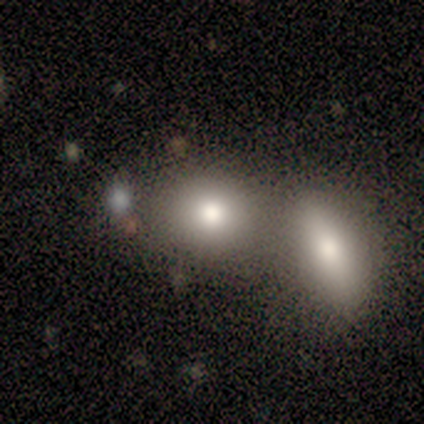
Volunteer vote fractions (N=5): Smooth or featured?
  - smooth: 100% *
  - featured or disk: 0%
  - star or artifact: 0%
How rounded?
  - in between: 60% *
  - round: 40%
  - cigar-shaped: 0%
Merging?
  - minor disturbance: 60% *
  - merger: 40%
  - none: 0%
  - major disturbance: 0%